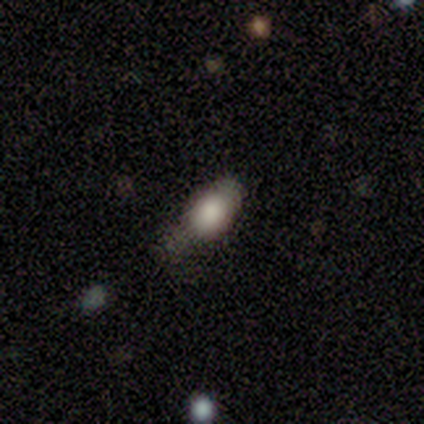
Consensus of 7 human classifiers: Smooth or featured?
  - smooth: 100% *
  - featured or disk: 0%
  - star or artifact: 0%
How rounded?
  - in between: 86% *
  - round: 14%
  - cigar-shaped: 0%
Merging?
  - none: 29% * (tied)
  - minor disturbance: 29% * (tied)
  - major disturbance: 29% * (tied)
  - merger: 14%